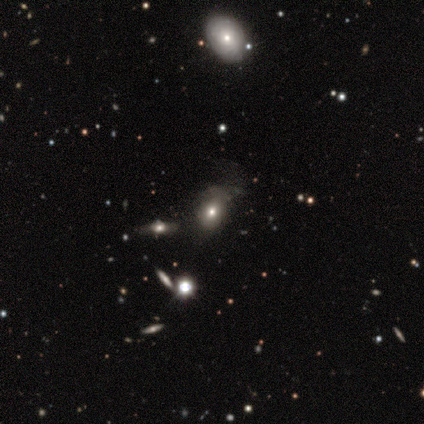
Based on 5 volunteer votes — A featured or disk galaxy (60%) with no bar (100%), no spiral arms (100%) and a large central bulge (67%). Merging: none (80%).